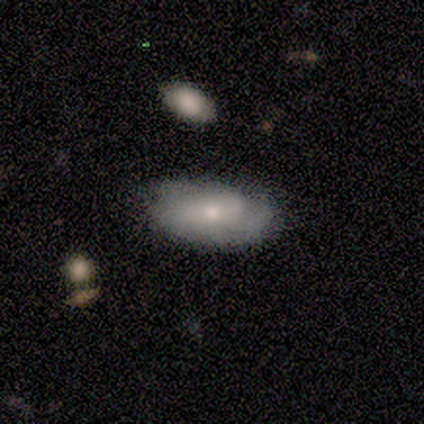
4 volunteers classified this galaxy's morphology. This appears to be a smooth galaxy with no disk features (50%, tied with featured or disk) that is in between round and cigar-shaped (100%). Merging: none (75%).